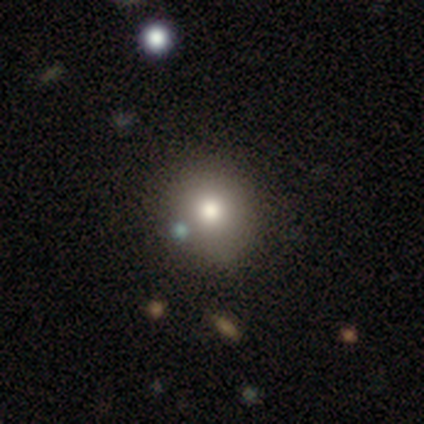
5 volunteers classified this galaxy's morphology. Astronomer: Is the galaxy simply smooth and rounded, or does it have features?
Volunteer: smooth — 80%.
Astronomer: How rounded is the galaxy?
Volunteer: round — 100%.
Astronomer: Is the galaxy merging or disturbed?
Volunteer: none — 80%.